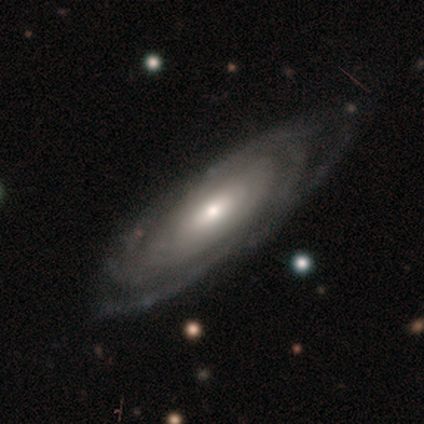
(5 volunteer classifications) Smooth or featured?
  - featured or disk: 60% *
  - smooth: 20%
  - star or artifact: 20%
Edge-on disk?
  - no: 67% *
  - yes: 33%
Bar?
  - weak: 100% *
  - strong: 0%
  - no: 0%
Spiral arms?
  - yes: 100% *
  - no: 0%
Spiral winding?
  - tight: 100% *
  - medium: 0%
  - loose: 0%
Spiral arm count?
  - can't tell: 100% *
  - 1: 0%
  - 2: 0%
  - 3: 0%
  - 4: 0%
  - more than 4: 0%
Bulge size?
  - moderate: 100% *
  - dominant: 0%
  - large: 0%
  - small: 0%
  - none: 0%
Merging?
  - none: 75% *
  - major disturbance: 25%
  - minor disturbance: 0%
  - merger: 0%